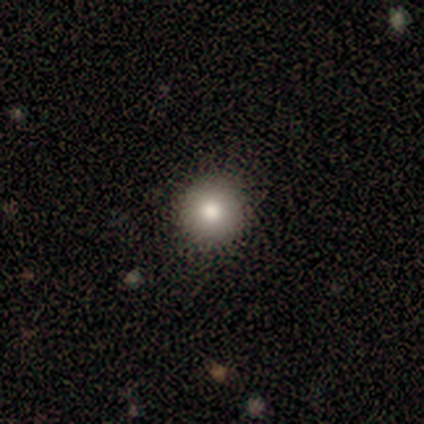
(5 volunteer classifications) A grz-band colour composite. It shows a smooth galaxy with no disk features (100%) that is round (100%). Merging: none (100%).